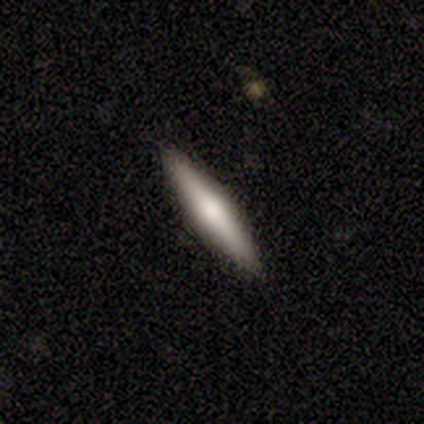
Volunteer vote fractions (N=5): This is marginally a smooth galaxy (40%, tied with star or artifact). How rounded: clearly cigar-shaped (100%). Merging: likely none (67%).